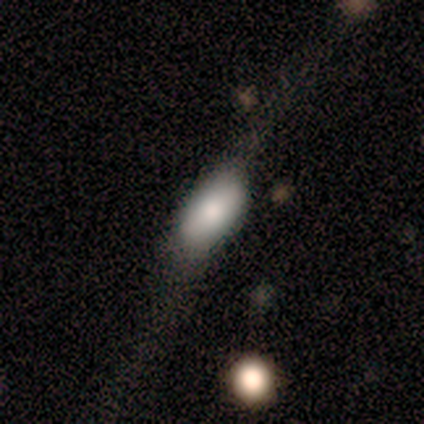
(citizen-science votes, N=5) Volunteers were most divided on "smooth or featured": smooth: 60%, featured or disk: 40%, star or artifact: 0%. More confident: how rounded — in between (100%); merging — none (60%).